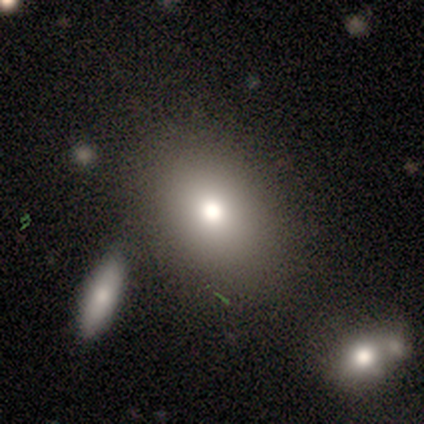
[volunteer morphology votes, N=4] smooth-or-featured: smooth: 75% | featured or disk: 25% | star or artifact: 0%
  how-rounded: in between: 67% | round: 33% | cigar-shaped: 0%
  merging: none: 100% | minor disturbance: 0% | major disturbance: 0% | merger: 0%